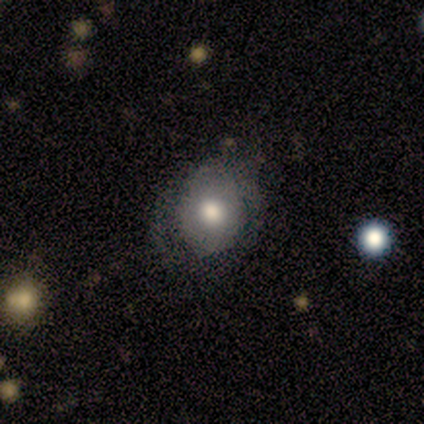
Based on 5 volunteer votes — smooth 80%, featured or disk 20%, star or artifact 0%. Down the decision tree: how rounded — round (50%, tied with in between); merging — none (80%).